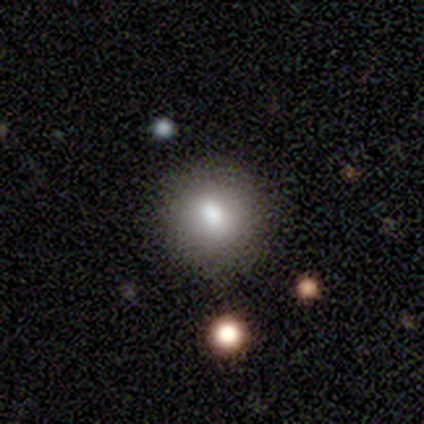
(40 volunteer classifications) smooth_or_featured: smooth (p=0.85) [alt: star or artifact p=0.10]
how_rounded: round (p=0.91) [alt: in between p=0.06]
merging: none (p=0.92) [alt: minor disturbance p=0.06]